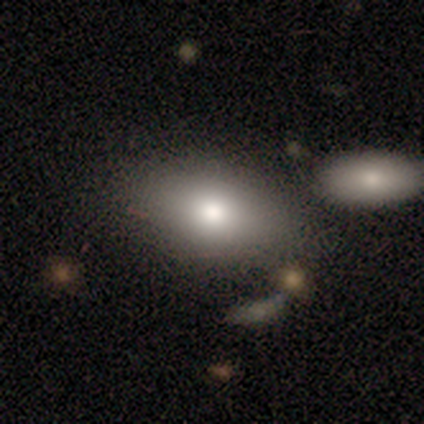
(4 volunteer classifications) Morphology: type=smooth (100%); roundness=in between (100%); merging=none (75%).